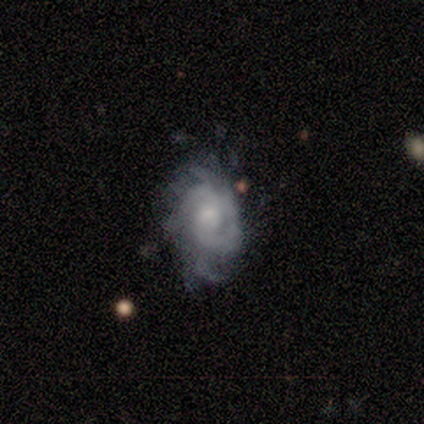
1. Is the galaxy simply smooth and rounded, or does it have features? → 75% featured or disk, 25% smooth, 0% star or artifact.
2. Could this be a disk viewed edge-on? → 100% no, 0% yes.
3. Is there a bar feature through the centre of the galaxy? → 67% no, 33% weak, 0% strong.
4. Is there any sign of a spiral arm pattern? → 67% yes, 33% no.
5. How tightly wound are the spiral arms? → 100% tight, 0% medium, 0% loose.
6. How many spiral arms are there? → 50% 2 (tied), 50% can't tell (tied), 0% 1, 0% 3, 0% 4, 0% more than 4.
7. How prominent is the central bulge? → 67% moderate, 33% small, 0% dominant, 0% large, 0% none.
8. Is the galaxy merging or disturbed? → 100% none, 0% minor disturbance, 0% major disturbance, 0% merger.